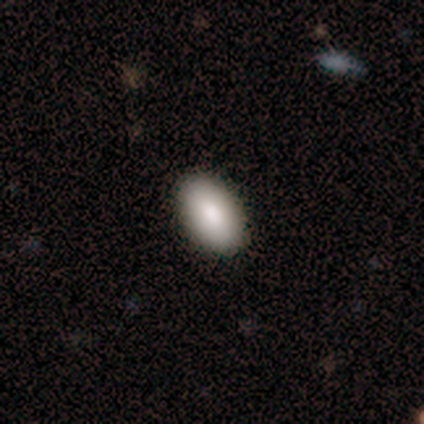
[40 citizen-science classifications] smooth-or-featured: smooth: 92% | featured or disk: 8% | star or artifact: 0%
  how-rounded: in between: 97% | round: 3% | cigar-shaped: 0%
  merging: none: 98% | minor disturbance: 2% | major disturbance: 0% | merger: 0%